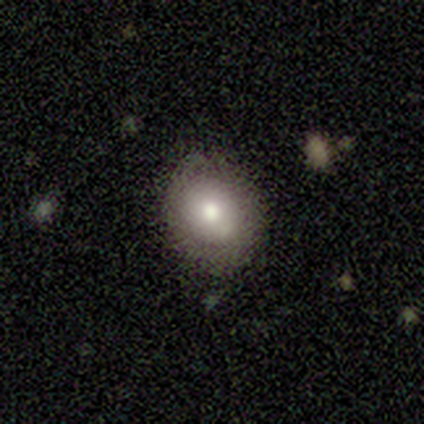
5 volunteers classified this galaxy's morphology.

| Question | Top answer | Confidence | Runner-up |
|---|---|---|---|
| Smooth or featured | smooth | 60% | featured or disk (20%) |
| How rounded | round | 100% | — |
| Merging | none | 100% | — |